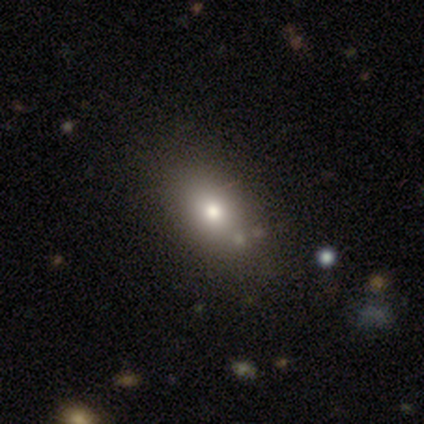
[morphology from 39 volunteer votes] smooth-or-featured: smooth: 87% | star or artifact: 8% | featured or disk: 5%
  how-rounded: in between: 85% | round: 15% | cigar-shaped: 0%
  merging: none: 64% | minor disturbance: 8% | major disturbance: 3% | merger: 0%